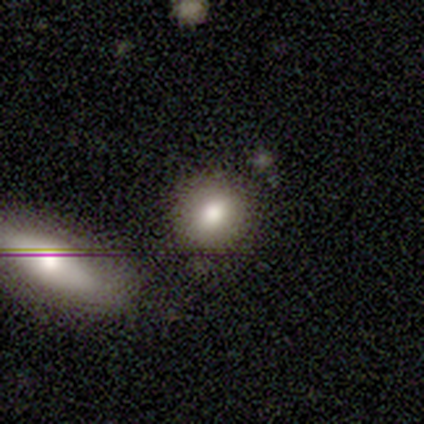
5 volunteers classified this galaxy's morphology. Smooth or featured? smooth (80%)
How rounded? round (100%)
Merging? none (80%)